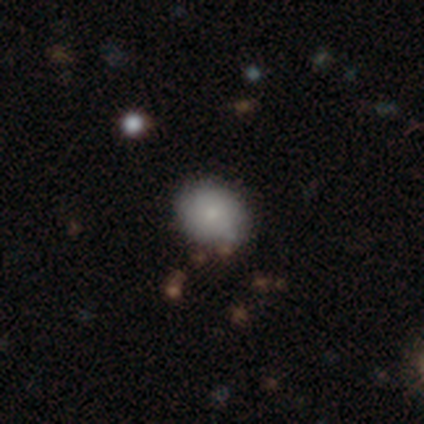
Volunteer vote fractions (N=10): smooth_or_featured: smooth (p=0.80) [alt: featured or disk p=0.20]
how_rounded: round (p=0.50) [tied with: in between p=0.50]
merging: none (p=0.80) [alt: minor disturbance p=0.20]